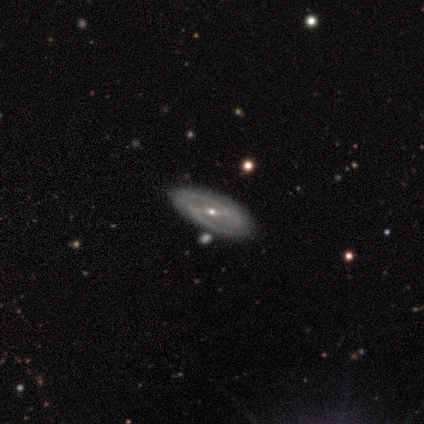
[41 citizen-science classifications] Morphology: type=featured or disk (88%); edge-on=no (92%); bar=weak (48%); spiral arms=yes (88%); winding=medium (62%); arm count=2 (69%); bulge=small (70%); merging=none (68%).